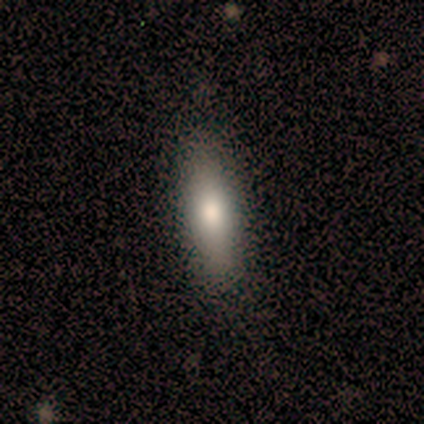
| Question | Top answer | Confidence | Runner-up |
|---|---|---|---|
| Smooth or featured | featured or disk | 60% | smooth (40%) |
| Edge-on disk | yes | 67% | no (33%) |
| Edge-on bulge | rounded | 100% | — |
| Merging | none | 100% | — |